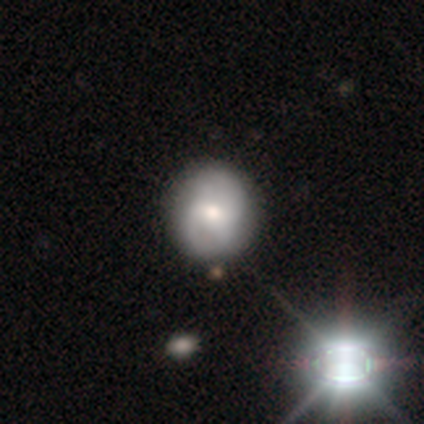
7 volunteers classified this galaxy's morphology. Smooth or featured?
  - smooth: 43% * (tied)
  - featured or disk: 43% * (tied)
  - star or artifact: 14%
How rounded?
  - round: 67% *
  - in between: 33%
  - cigar-shaped: 0%
Merging?
  - none: 100% *
  - minor disturbance: 0%
  - major disturbance: 0%
  - merger: 0%